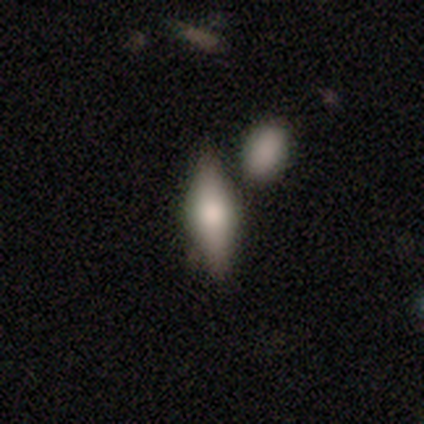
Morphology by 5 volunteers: Smooth or featured: smooth — 40% (tied with featured or disk — 40%)
How rounded: in between — 100%
Merging: none — 50% (minor disturbance — 25%)